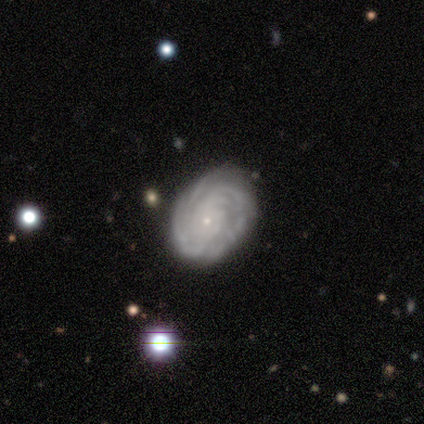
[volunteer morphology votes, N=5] Smooth or featured: featured or disk — 60% (smooth — 40%)
Edge-on disk: no — 100%
Bar: no — 67% (weak — 33%)
Spiral arms: yes — 100%
Spiral winding: tight — 100%
Spiral arm count: 2 — 33% (tied with more than 4 — 33%; can't tell — 33%)
Bulge size: small — 100%
Merging: none — 100%